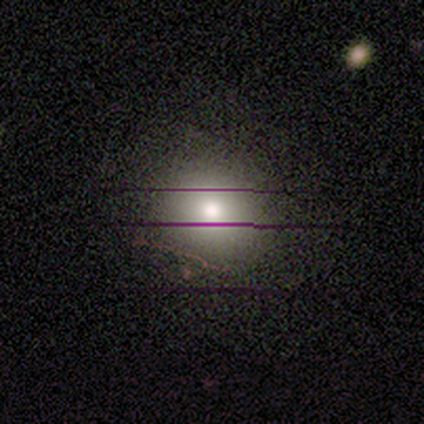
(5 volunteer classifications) This is marginally a smooth galaxy (40%, tied with featured or disk). How rounded: clearly round (100%). Merging: clearly none (100%).